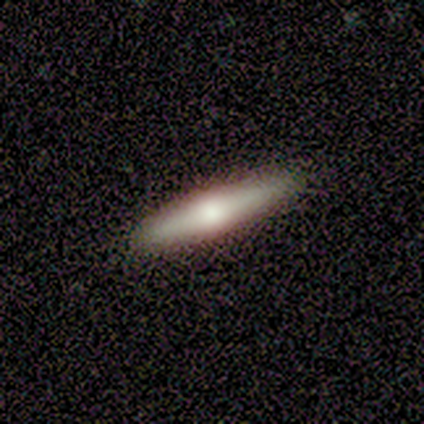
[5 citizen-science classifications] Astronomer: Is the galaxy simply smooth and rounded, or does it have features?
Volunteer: featured or disk — 80%.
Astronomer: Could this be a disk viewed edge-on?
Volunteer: yes — 100%.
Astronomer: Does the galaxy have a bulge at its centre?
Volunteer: rounded — 75%.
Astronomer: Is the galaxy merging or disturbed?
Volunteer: none — 100%.